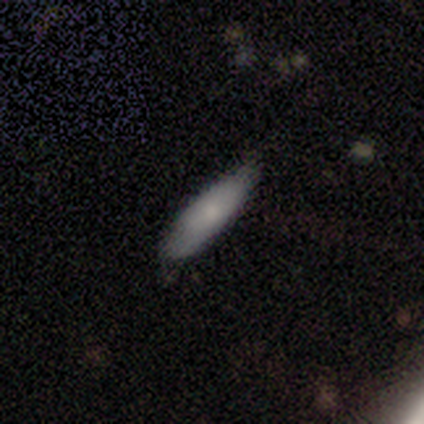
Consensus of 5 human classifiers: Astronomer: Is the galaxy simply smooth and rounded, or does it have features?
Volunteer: smooth — 80%.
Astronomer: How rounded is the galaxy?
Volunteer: in between — 75%.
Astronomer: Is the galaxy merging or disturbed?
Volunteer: none — 100%.